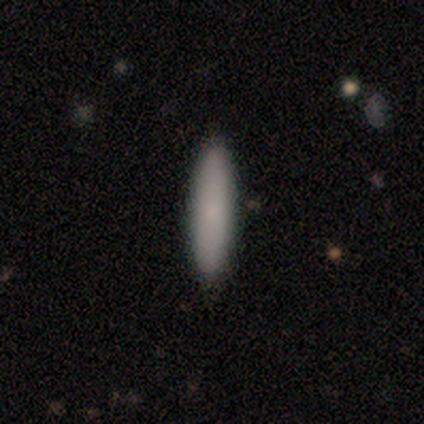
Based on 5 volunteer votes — A smooth galaxy with no disk features (100%) that is cigar-shaped (80%).

Vote fractions:
- Smooth or featured? smooth: 100% / featured or disk: 0% / star or artifact: 0%
- How rounded? cigar-shaped: 80% / in between: 20% / round: 0%
- Merging? none: 80% / minor disturbance: 20% / major disturbance: 0% / merger: 0%